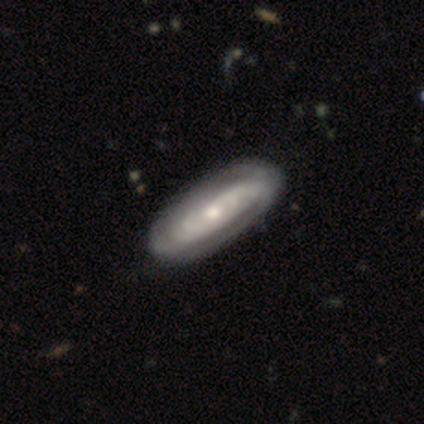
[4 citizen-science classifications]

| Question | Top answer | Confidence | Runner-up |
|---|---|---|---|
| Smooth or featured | featured or disk | 75% | smooth (25%) |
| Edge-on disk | no | 100% | — |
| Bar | no | 67% | weak (33%) |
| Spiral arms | yes | 100% | — |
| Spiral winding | tight | 33% | tied: medium (33%), loose (33%) |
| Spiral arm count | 2 | 67% | can't tell (33%) |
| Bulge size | moderate | 67% | small (33%) |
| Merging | none | 75% | minor disturbance (25%) |